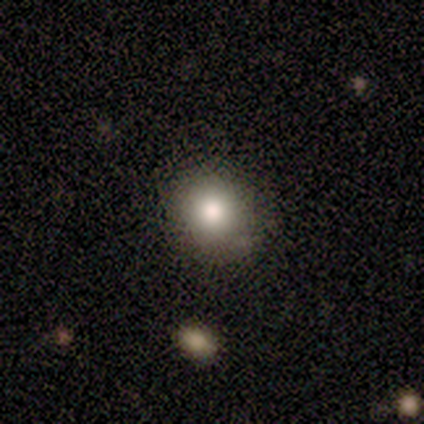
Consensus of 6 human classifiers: Consensus on every question: smooth or featured — smooth (100%); how rounded — round (100%); merging — none (100%).